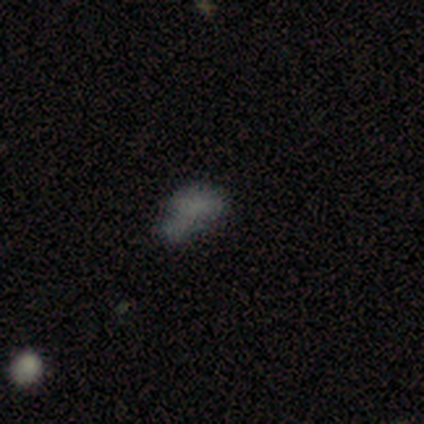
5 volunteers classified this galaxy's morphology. smooth-or-featured: smooth: 40% (tied) | featured or disk: 40% (tied) | star or artifact: 20%
  how-rounded: in between: 100% | round: 0% | cigar-shaped: 0%
  merging: none: 50% (tied) | minor disturbance: 50% (tied) | major disturbance: 0% | merger: 0%